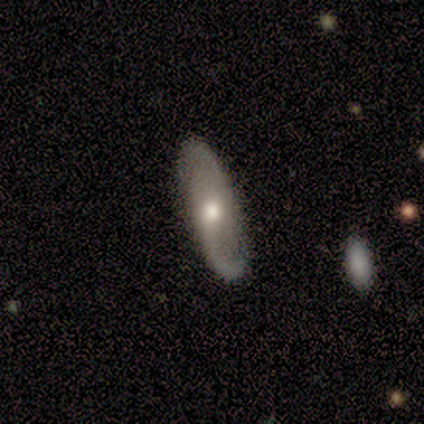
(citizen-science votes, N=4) Volunteers were most divided on "spiral winding" (3-way tie): tight: 33%, medium: 33%, loose: 33%. More confident: edge-on disk — no (100%); bar — no (100%); spiral arms — yes (100%); spiral arm count — 2 (100%); bulge size — moderate (100%); smooth or featured — featured or disk (75%); merging — none (75%).